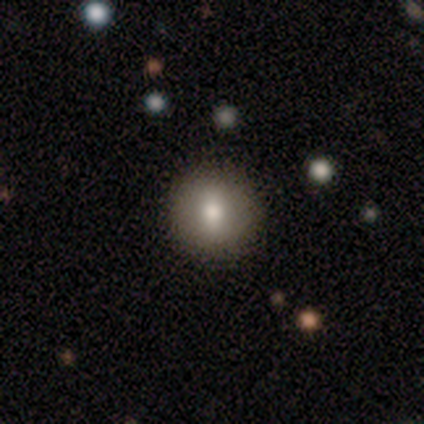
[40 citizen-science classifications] Smooth or featured: smooth — 62% (featured or disk — 25%)
How rounded: round — 92% (in between — 8%)
Merging: none — 77% (minor disturbance — 6%)